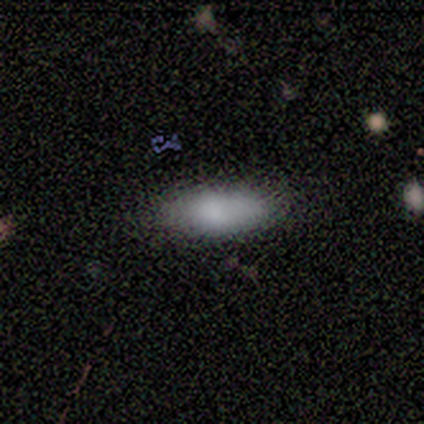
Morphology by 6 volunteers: A smooth galaxy with no disk features (50%) that is cigar-shaped (67%).

Vote fractions:
- Smooth or featured? smooth: 50% / star or artifact: 33% / featured or disk: 17%
- How rounded? cigar-shaped: 67% / in between: 33% / round: 0%
- Merging? none: 75% / major disturbance: 25% / minor disturbance: 0% / merger: 0%